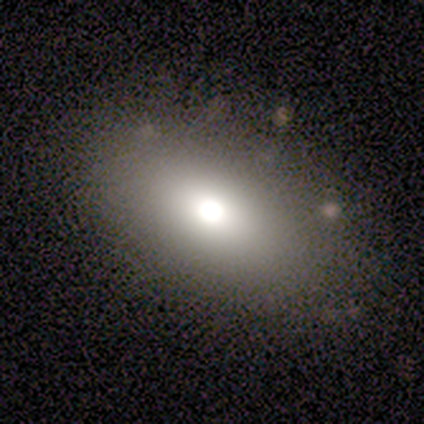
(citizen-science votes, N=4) A smooth galaxy with no disk features (100%) that is in between round and cigar-shaped (100%). Merging: none (75%).